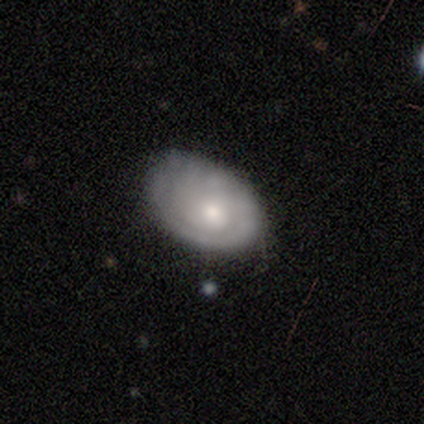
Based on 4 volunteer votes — A smooth galaxy with no disk features (50%, tied with featured or disk) that is in between round and cigar-shaped (100%).

Vote fractions:
- Smooth or featured? smooth: 50% (tied) / featured or disk: 50% (tied) / star or artifact: 0%
- How rounded? in between: 100% / round: 0% / cigar-shaped: 0%
- Merging? none: 100% / minor disturbance: 0% / major disturbance: 0% / merger: 0%